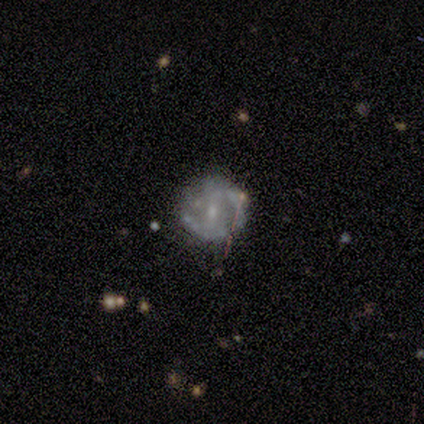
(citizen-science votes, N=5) Q: Smooth or featured?
A: featured or disk (40%); tied with: star or artifact (40%)
Q: Edge-on disk?
A: no (100%)
Q: Bar?
A: no (100%)
Q: Spiral arms?
A: yes (50%); tied with: no (50%)
Q: Spiral winding?
A: loose (100%)
Q: Spiral arm count?
A: 1 (100%)
Q: Bulge size?
A: small (100%)
Q: Merging?
A: none (100%)